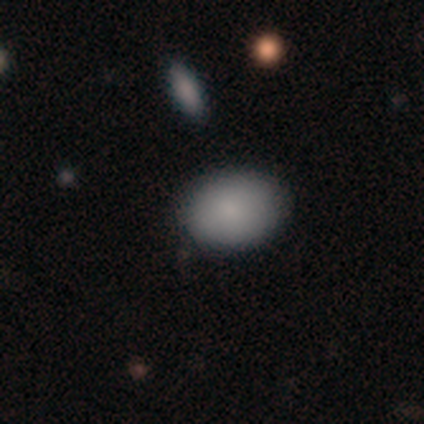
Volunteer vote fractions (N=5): Volunteers were most divided on "merging": none: 60%, minor disturbance: 40%, major disturbance: 0%, merger: 0%. More confident: smooth or featured — smooth (80%); how rounded — in between (75%).